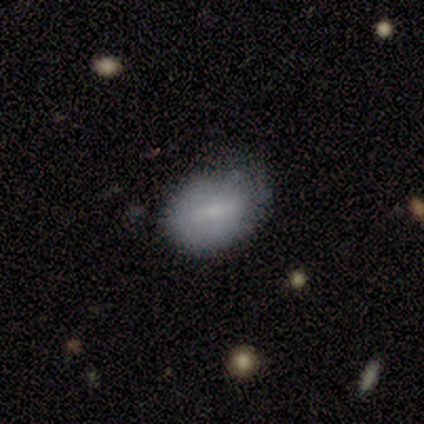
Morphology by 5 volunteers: A smooth galaxy with no disk features (100%) that is in between round and cigar-shaped (80%).

Vote fractions:
- Smooth or featured? smooth: 100% / featured or disk: 0% / star or artifact: 0%
- How rounded? in between: 80% / round: 20% / cigar-shaped: 0%
- Merging? none: 100% / minor disturbance: 0% / major disturbance: 0% / merger: 0%